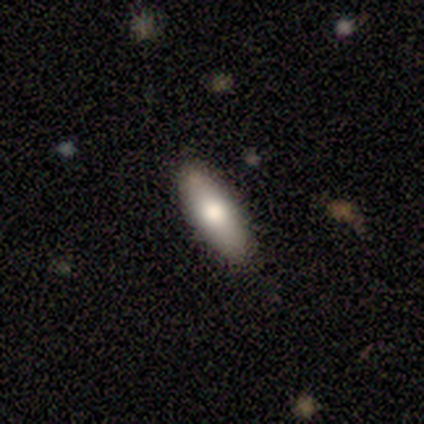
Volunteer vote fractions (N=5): Q: Smooth or featured?
A: smooth (80%); runner-up: featured or disk (20%)
Q: How rounded?
A: in between (75%); runner-up: cigar-shaped (25%)
Q: Merging?
A: none (80%); runner-up: minor disturbance (20%)